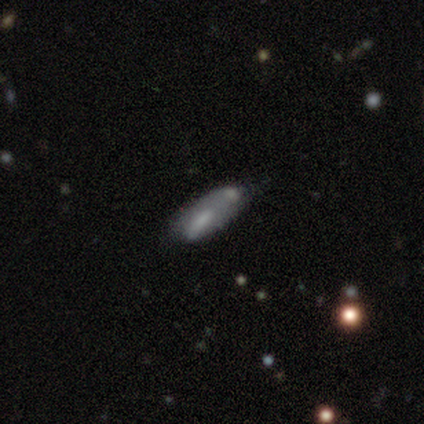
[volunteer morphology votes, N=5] A featured or disk galaxy (60%) with no bar (100%), no spiral arms (100%) and a moderate central bulge (50%, tied with none). Merging: none (40%, tied with merger).